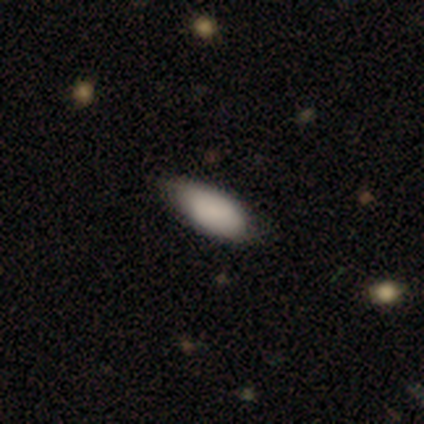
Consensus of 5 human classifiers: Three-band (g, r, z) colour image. It shows a smooth galaxy with no disk features (100%) that is in between round and cigar-shaped (100%). Merging: none (100%).